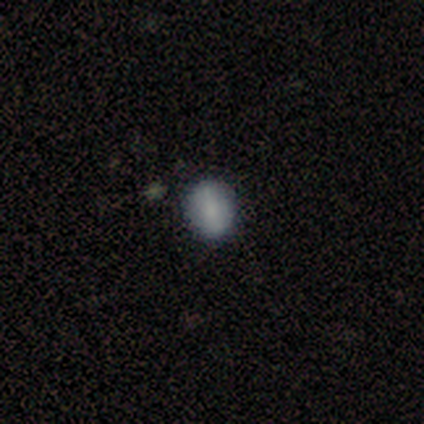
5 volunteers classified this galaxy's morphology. smooth-or-featured: smooth: 80% | featured or disk: 20% | star or artifact: 0%
  how-rounded: round: 75% | in between: 25% | cigar-shaped: 0%
  merging: none: 80% | merger: 20% | minor disturbance: 0% | major disturbance: 0%